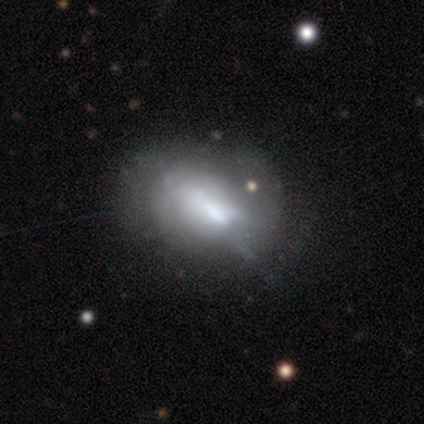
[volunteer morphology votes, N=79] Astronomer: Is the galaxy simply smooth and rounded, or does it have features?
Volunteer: featured or disk — 56%.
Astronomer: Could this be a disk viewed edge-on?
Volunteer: no — 91%.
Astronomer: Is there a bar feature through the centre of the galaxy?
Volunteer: no — 52%.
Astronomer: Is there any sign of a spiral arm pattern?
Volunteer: no — 85%.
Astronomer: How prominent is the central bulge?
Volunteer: none — 32% (runner-up: moderate, 30%).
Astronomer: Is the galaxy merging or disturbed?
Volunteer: major disturbance — 19% (runner-up: minor disturbance, 13%).